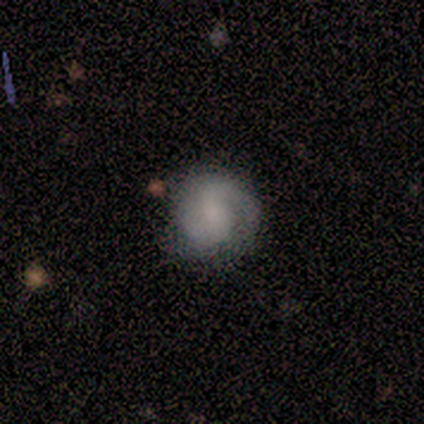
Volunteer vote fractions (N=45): A featured or disk galaxy (62%) with a weak bar (46%), 2 (84%) tight (48%) spiral arms (89%) and a small central bulge (43%). Merging: none (63%).